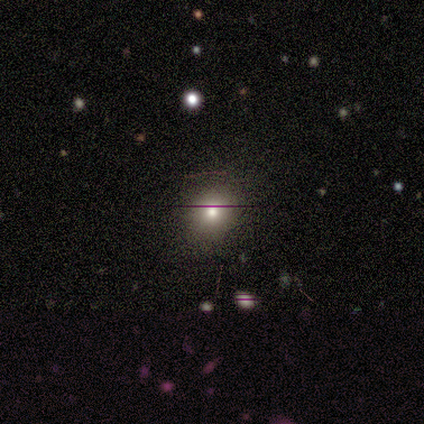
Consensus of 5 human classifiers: Morphology: type=smooth (100%); roundness=round (100%); merging=none (60%).